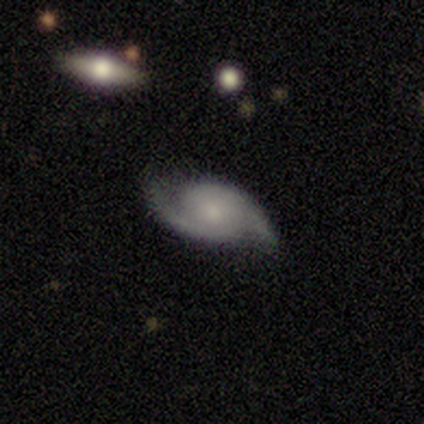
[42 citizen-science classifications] Smooth or featured?
  - featured or disk: 86% *
  - smooth: 7%
  - star or artifact: 7%
Edge-on disk?
  - no: 100% *
  - yes: 0%
Bar?
  - no: 72% *
  - weak: 25%
  - strong: 3%
Spiral arms?
  - yes: 97% *
  - no: 3%
Spiral winding?
  - medium: 51% *
  - tight: 37%
  - loose: 11%
Spiral arm count?
  - 2: 100% *
  - 1: 0%
  - 3: 0%
  - 4: 0%
  - more than 4: 0%
  - can't tell: 0%
Bulge size?
  - moderate: 56% *
  - small: 25%
  - none: 11%
  - large: 6%
  - dominant: 3%
Merging?
  - none: 77% *
  - minor disturbance: 15%
  - merger: 5%
  - major disturbance: 3%